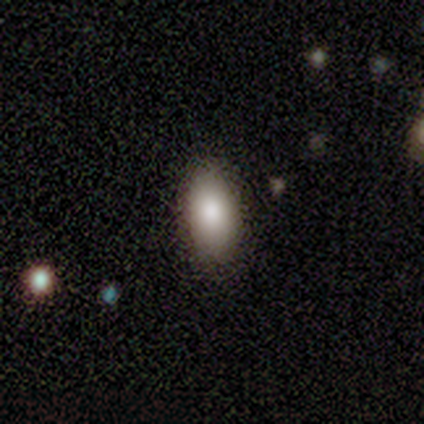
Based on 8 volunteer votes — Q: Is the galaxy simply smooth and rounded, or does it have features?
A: smooth — 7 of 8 (88%).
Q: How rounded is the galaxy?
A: in between — 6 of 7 (86%).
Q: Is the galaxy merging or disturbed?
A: none — 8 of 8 (100%).